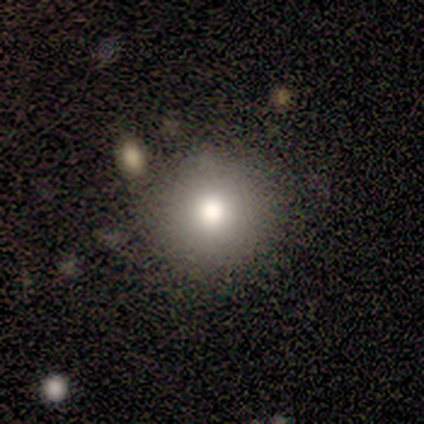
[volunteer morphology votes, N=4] Volunteers were most divided on "merging": none: 75%, merger: 25%, minor disturbance: 0%, major disturbance: 0%. More confident: smooth or featured — smooth (100%); how rounded — round (100%).